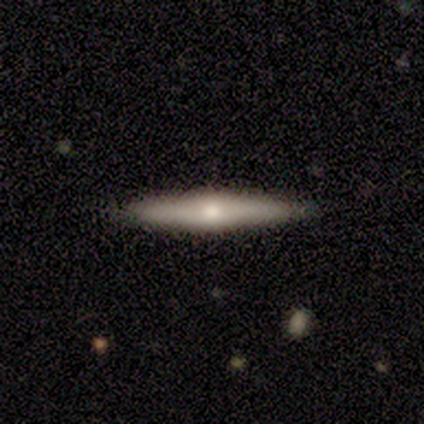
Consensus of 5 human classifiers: This appears to be a featured or disk galaxy (60%) viewed edge-on (100%) with a rounded central bulge (100%). Merging: none (80%).